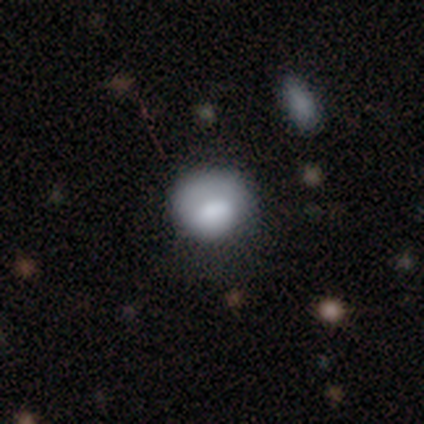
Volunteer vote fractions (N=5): Overall: smooth (100%). How rounded: round (100%). Merging: none (60%; minor disturbance 20%).